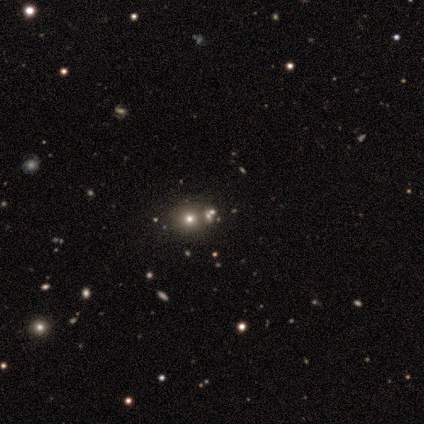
Smooth or featured: smooth — 50% (tied with star or artifact — 50%)
How rounded: round — 100%
Merging: none — 50% (tied with minor disturbance — 50%)